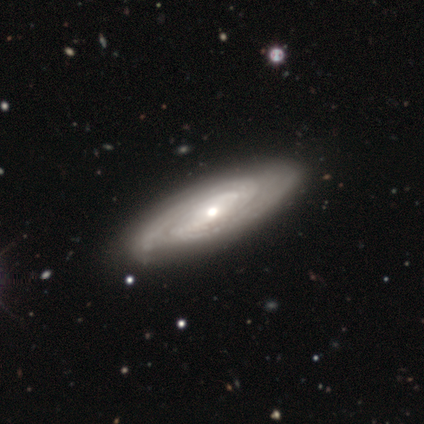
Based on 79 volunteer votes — featured or disk 85%, star or artifact 9%, smooth 6%. Down the decision tree: edge-on disk — no (87%); bar — no (47%); spiral arms — yes (95%); spiral arm count — 2 (45%); spiral winding — tight (58%); bulge size — moderate (64%); merging — none (36%).